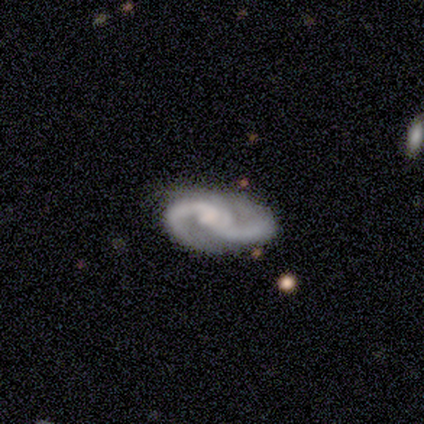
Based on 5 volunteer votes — Morphology: type=featured or disk (100%); edge-on=no (100%); bar=weak (60%); spiral arms=yes (100%); winding=loose (60%); arm count=2 (80%); bulge=none (60%); merging=none (100%).